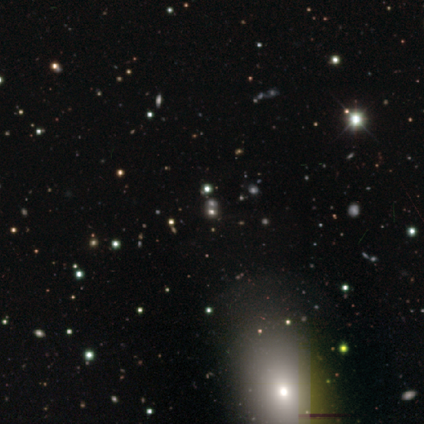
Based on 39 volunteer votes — A star or artifact, not a galaxy (62%).